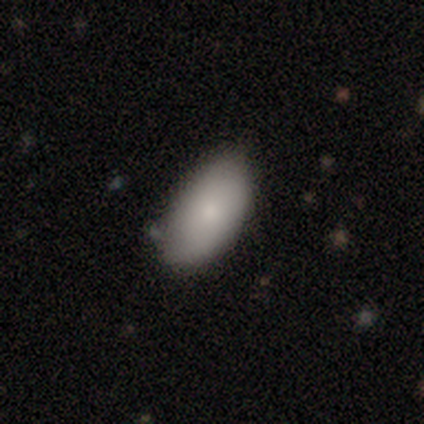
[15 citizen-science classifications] Smooth or featured? smooth (80%)
How rounded? in between (92%)
Merging? none (80%)